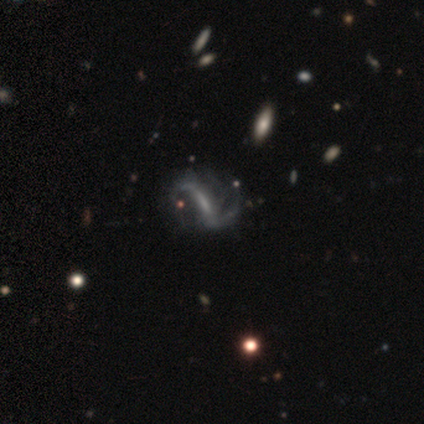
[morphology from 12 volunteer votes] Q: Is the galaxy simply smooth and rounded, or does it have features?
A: featured or disk — 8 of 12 (67%).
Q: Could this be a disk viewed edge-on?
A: no — 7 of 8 (88%).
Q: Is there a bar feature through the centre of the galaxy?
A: strong — 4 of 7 (57%).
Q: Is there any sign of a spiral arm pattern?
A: yes — 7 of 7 (100%).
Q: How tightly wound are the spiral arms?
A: loose — 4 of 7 (57%).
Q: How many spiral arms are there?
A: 2 — 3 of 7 (43%).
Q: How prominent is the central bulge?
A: small — 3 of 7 (43%, tied with none).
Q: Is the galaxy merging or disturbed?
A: none — 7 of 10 (70%).